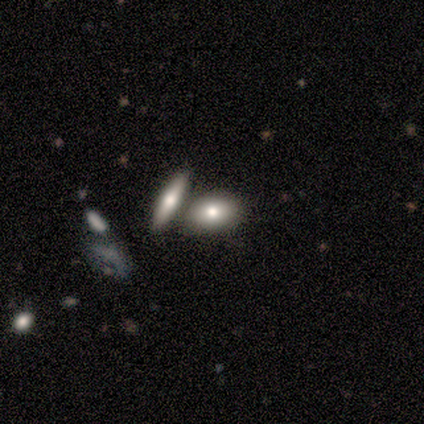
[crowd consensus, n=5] This is clearly a smooth galaxy (100%). How rounded: clearly in between (80%). Merging: likely merger (60%).